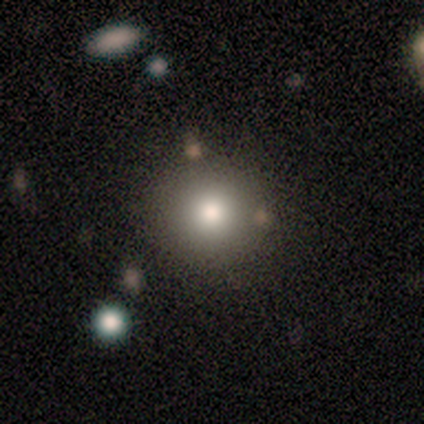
Smooth or featured? smooth (71%)
How rounded? round (100%)
Merging? none (100%)